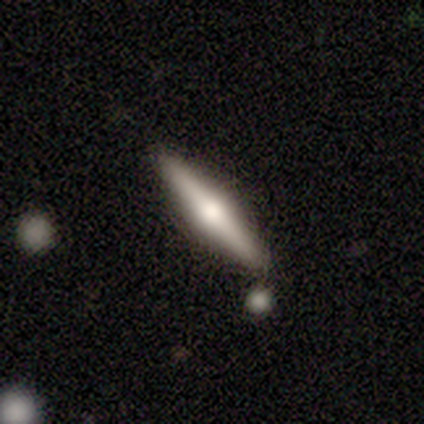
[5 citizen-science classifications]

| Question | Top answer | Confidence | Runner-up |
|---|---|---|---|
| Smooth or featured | featured or disk | 100% | — |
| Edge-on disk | yes | 100% | — |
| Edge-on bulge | rounded | 100% | — |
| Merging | none | 100% | — |